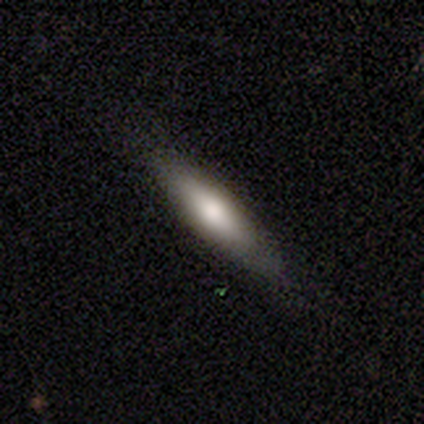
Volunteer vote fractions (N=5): smooth-or-featured: smooth: 80% | featured or disk: 20% | star or artifact: 0%
  how-rounded: in between: 50% (tied) | cigar-shaped: 50% (tied) | round: 0%
  merging: none: 80% | minor disturbance: 20% | major disturbance: 0% | merger: 0%